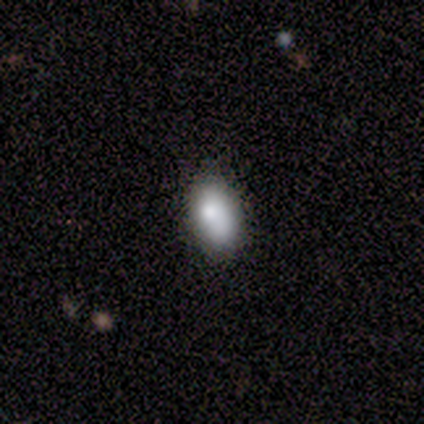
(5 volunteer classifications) Smooth or featured? smooth (60%)
How rounded? in between (100%)
Merging? none (60%)